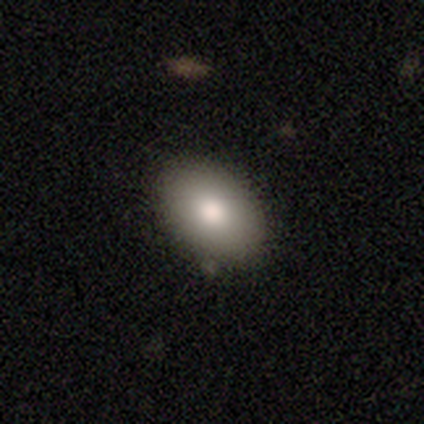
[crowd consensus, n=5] Overall: smooth (100%). How rounded: in between (100%). Merging: none (100%).